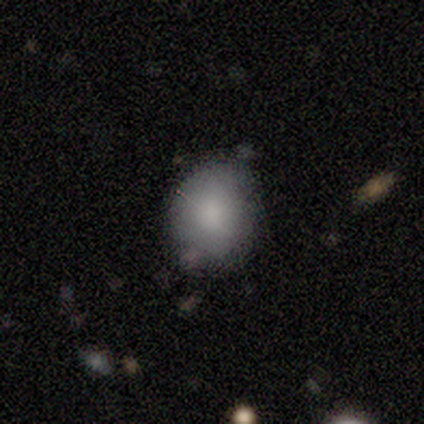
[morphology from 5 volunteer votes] Smooth or featured? smooth (100%)
How rounded? round (80%)
Merging? none (60%)